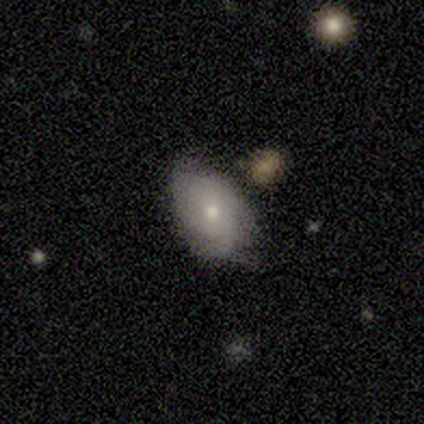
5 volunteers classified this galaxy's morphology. This appears to be a smooth galaxy with no disk features (100%) that is in between round and cigar-shaped (100%). Merging: none (80%).